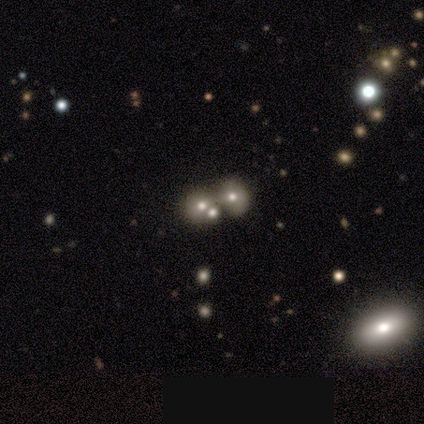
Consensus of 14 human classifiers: smooth_or_featured: smooth (p=0.50) [alt: featured or disk p=0.36]
how_rounded: round (p=0.57) [alt: in between p=0.43]
merging: merger (p=0.58) [alt: none p=0.25]